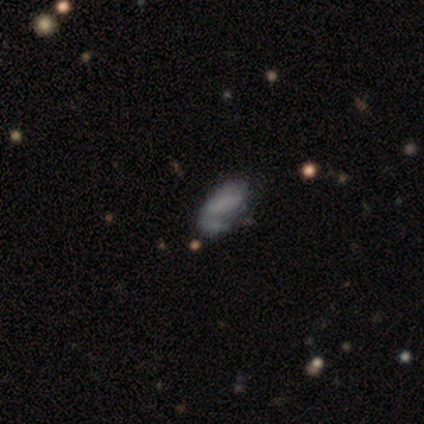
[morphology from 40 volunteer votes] Smooth or featured: smooth — 62% (featured or disk — 30%)
How rounded: in between — 88% (round — 8%)
Merging: none — 32% (minor disturbance — 27%)